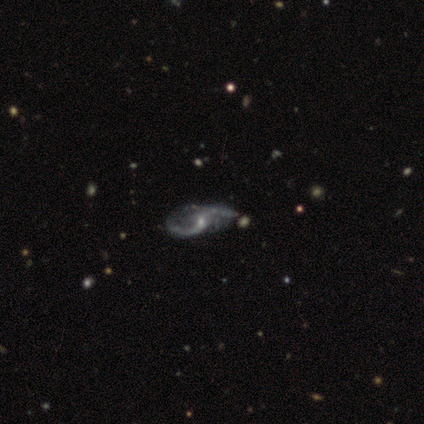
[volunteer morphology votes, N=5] Smooth or featured?
  - featured or disk: 100% *
  - smooth: 0%
  - star or artifact: 0%
Edge-on disk?
  - no: 100% *
  - yes: 0%
Bar?
  - no: 80% *
  - weak: 20%
  - strong: 0%
Spiral arms?
  - yes: 100% *
  - no: 0%
Spiral winding?
  - loose: 100% *
  - tight: 0%
  - medium: 0%
Spiral arm count?
  - 2: 100% *
  - 1: 0%
  - 3: 0%
  - 4: 0%
  - more than 4: 0%
  - can't tell: 0%
Bulge size?
  - small: 80% *
  - moderate: 20%
  - dominant: 0%
  - large: 0%
  - none: 0%
Merging?
  - none: 60% *
  - minor disturbance: 20%
  - major disturbance: 20%
  - merger: 0%